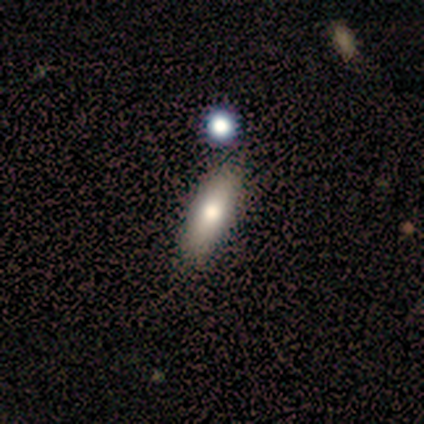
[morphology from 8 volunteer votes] Smooth or featured: smooth — 100%
How rounded: cigar-shaped — 50% (in between — 38%)
Merging: none — 75% (minor disturbance — 25%)